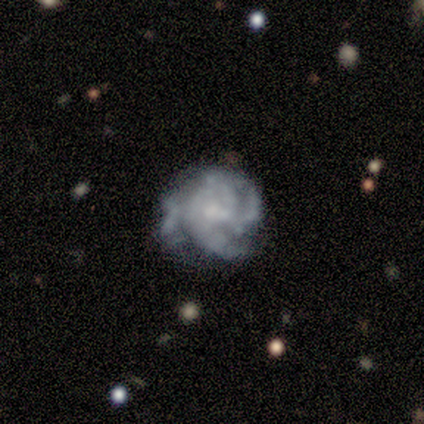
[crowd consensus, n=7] Smooth or featured: featured or disk — 71% (smooth — 29%)
Edge-on disk: no — 80% (yes — 20%)
Bar: weak — 75% (strong — 25%)
Spiral arms: yes — 100%
Spiral winding: loose — 50% (tight — 25%)
Spiral arm count: 3 — 50% (tied with 4 — 50%)
Bulge size: moderate — 50% (small — 25%)
Merging: none — 43% (tied with minor disturbance — 43%)